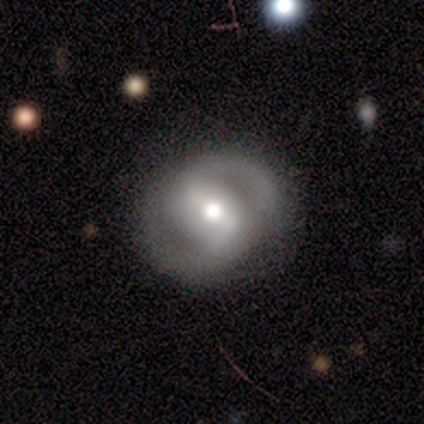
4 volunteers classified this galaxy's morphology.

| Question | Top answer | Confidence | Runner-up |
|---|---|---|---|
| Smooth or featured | featured or disk | 100% | — |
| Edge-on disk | no | 100% | — |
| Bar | strong | 50% | tied: weak (50%) |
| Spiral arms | yes | 100% | — |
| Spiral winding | medium | 75% | tight (25%) |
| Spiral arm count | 2 | 100% | — |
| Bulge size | moderate | 50% | tied: small (50%) |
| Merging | none | 100% | — |